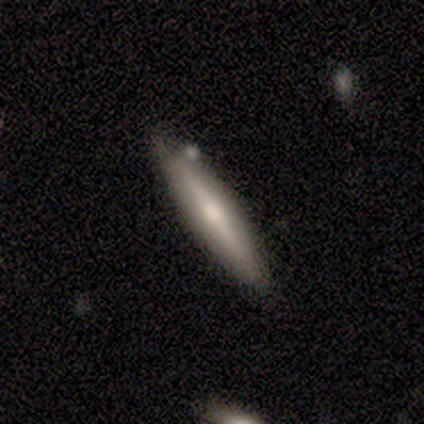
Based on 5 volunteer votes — Q: Smooth or featured?
A: smooth (80%); runner-up: featured or disk (20%)
Q: How rounded?
A: cigar-shaped (100%)
Q: Merging?
A: none (100%)